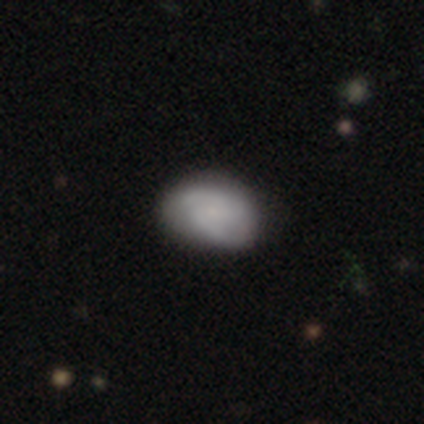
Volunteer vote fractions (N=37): Smooth or featured? featured or disk (65%)
Edge-on disk? no (100%)
Bar? no (54%)
Spiral arms? yes (100%)
Spiral winding? medium (50%)
Spiral arm count? 2 (75%)
Bulge size? small (58%)
Merging? none (54%)